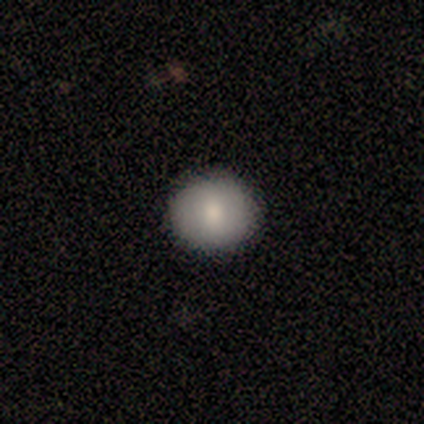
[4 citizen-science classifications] smooth_or_featured: smooth (p=0.75) [alt: star or artifact p=0.25]
how_rounded: round (p=1.00)
merging: none (p=0.67) [alt: minor disturbance p=0.33]